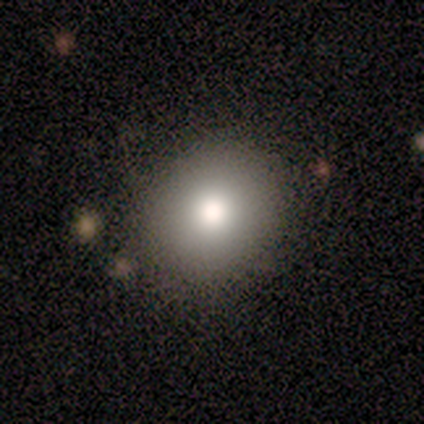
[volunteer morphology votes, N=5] Overall: smooth (60%; featured or disk 20%). How rounded: round (67%; in between 33%). Merging: none (100%).